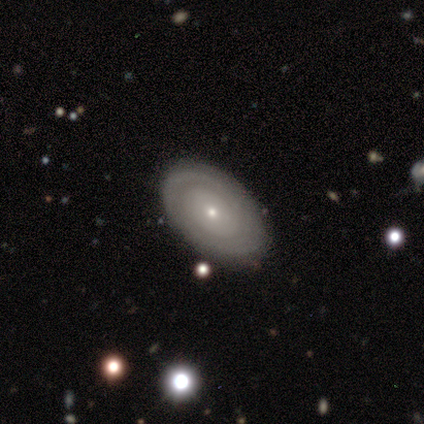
Smooth or featured: featured or disk — 85% (smooth — 15%)
Edge-on disk: no — 100%
Bar: no — 82% (weak — 18%)
Spiral arms: yes — 64% (no — 36%)
Spiral winding: tight — 57% (medium — 29%)
Spiral arm count: can't tell — 71% (2 — 14%)
Bulge size: small — 82% (moderate — 18%)
Merging: none — 85% (minor disturbance — 15%)